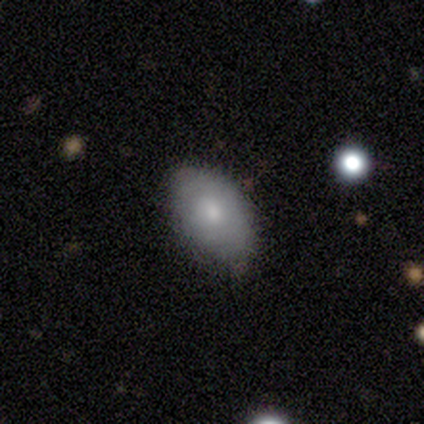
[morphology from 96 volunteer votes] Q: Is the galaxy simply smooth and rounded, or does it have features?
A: smooth — 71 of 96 (74%).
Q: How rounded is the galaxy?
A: in between — 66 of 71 (93%).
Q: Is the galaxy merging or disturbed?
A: none — 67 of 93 (72%).